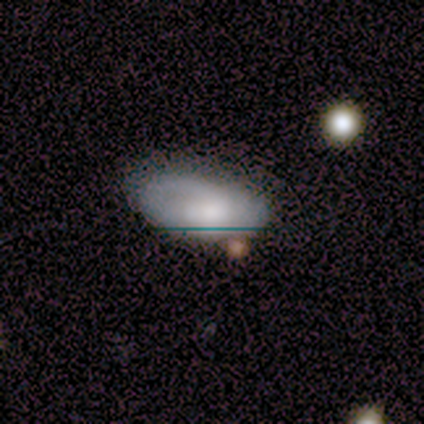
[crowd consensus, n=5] Overall: smooth (80%). How rounded: in between (75%). Merging: none (60%; minor disturbance 20%).